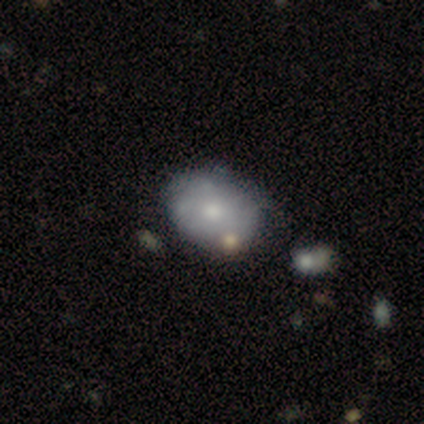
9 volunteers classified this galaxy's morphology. smooth 56%, featured or disk 33%, star or artifact 11%. Down the decision tree: how rounded — in between (80%); merging — none (75%).